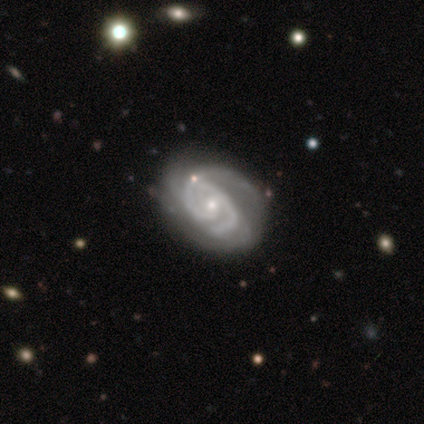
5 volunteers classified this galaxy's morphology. This is clearly a featured or disk galaxy (100%). It is clearly not viewed edge-on (100%). Bar: marginally weak (40%, tied with no). Spiral arm pattern: clearly yes (100%). Spiral arm count: likely 2 (60%). Spiral winding: marginally tight (40%, tied with loose). Central bulge: likely small (60%). Merging: likely none (60%).